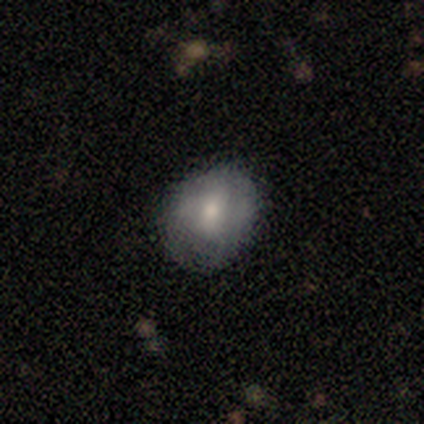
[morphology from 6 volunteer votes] Smooth or featured? smooth (50%)
How rounded? round (67%)
Merging? none (40%, tied with minor disturbance)